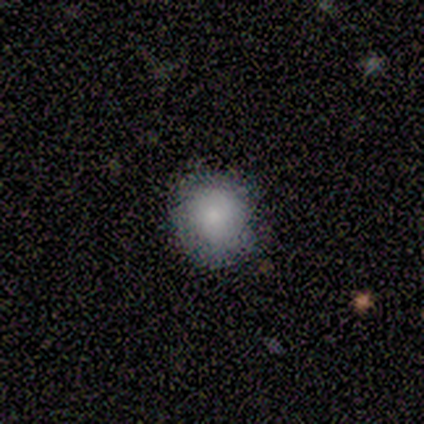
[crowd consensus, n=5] smooth-or-featured: smooth: 60% | featured or disk: 20% | star or artifact: 20%
  how-rounded: round: 100% | in between: 0% | cigar-shaped: 0%
  merging: none: 100% | minor disturbance: 0% | major disturbance: 0% | merger: 0%